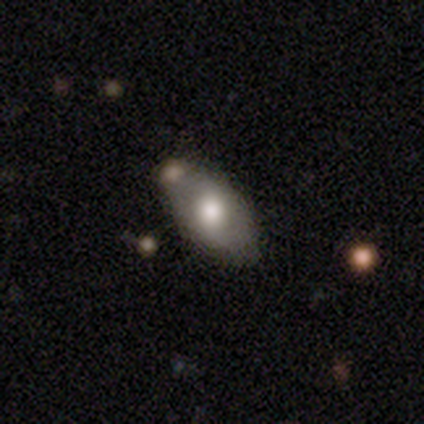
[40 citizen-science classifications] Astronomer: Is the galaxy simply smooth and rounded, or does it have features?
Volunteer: smooth — 70%.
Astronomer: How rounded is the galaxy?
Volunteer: in between — 100%.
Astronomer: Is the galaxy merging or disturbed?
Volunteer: none — 66%.